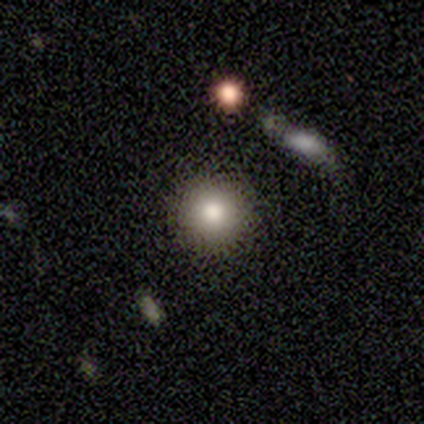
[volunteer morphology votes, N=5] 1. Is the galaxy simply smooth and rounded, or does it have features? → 60% smooth, 40% star or artifact, 0% featured or disk.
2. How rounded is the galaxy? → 100% round, 0% in between, 0% cigar-shaped.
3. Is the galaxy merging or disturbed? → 100% none, 0% minor disturbance, 0% major disturbance, 0% merger.